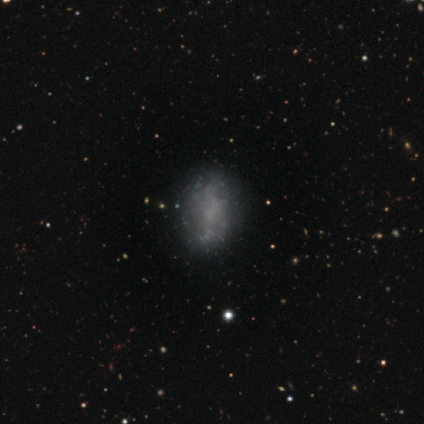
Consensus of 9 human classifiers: Smooth or featured? 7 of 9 (78%) said featured or disk. Edge-on disk? 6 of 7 (86%) said no. Bar? 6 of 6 (100%) said no. Spiral arms? 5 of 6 (83%) said no. Bulge size? 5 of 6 (83%) said none. Merging? 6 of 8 (75%) said none.